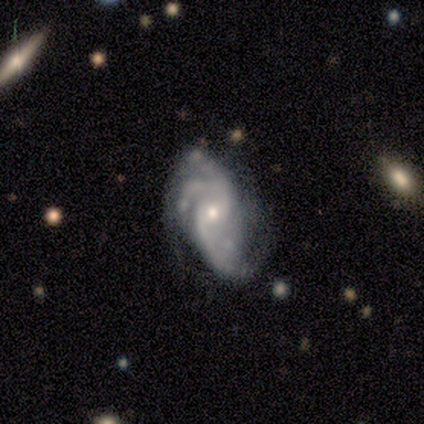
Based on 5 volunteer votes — Smooth or featured? featured or disk (100%)
Edge-on disk? no (100%)
Bar? no (60%)
Spiral arms? yes (100%)
Spiral winding? medium (40%, tied with loose)
Spiral arm count? 2 (40%)
Bulge size? small (60%)
Merging? none (60%)